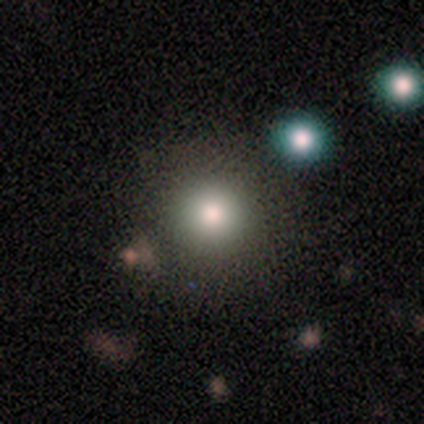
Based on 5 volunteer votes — Smooth or featured: smooth — 100%
How rounded: round — 100%
Merging: none — 100%